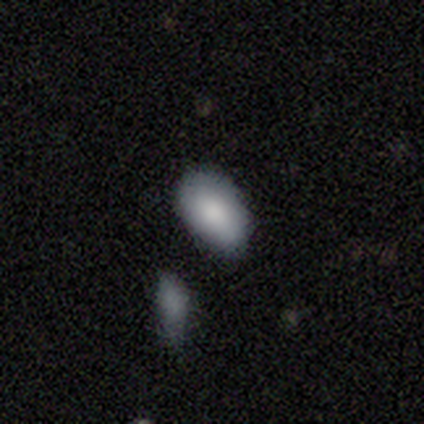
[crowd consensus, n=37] Smooth or featured?
  - smooth: 86% *
  - star or artifact: 11%
  - featured or disk: 3%
How rounded?
  - in between: 94% *
  - round: 3%
  - cigar-shaped: 3%
Merging?
  - none: 55% *
  - minor disturbance: 33%
  - merger: 9%
  - major disturbance: 3%